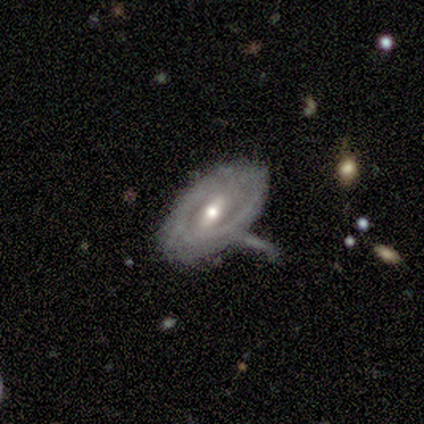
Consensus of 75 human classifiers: featured or disk 71%, smooth 25%, star or artifact 4%. Down the decision tree: edge-on disk — no (94%); bar — weak (54%); spiral arms — yes (64%); spiral arm count — can't tell (50%); spiral winding — tight (53%); bulge size — moderate (64%); merging — minor disturbance (38%).